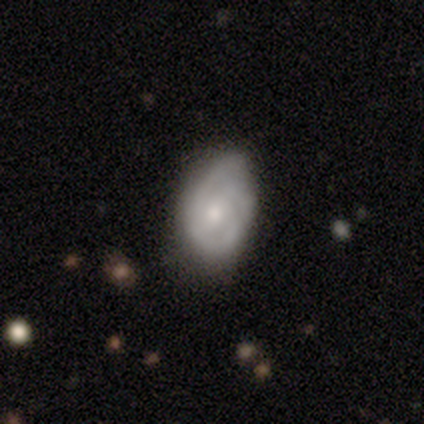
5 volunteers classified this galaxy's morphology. This appears to be a smooth galaxy with no disk features (40%, tied with featured or disk) that is round (50%, tied with in between). Merging: minor disturbance (75%).